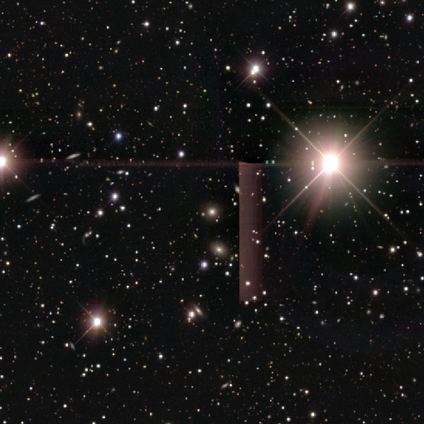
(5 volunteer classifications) Consensus on every question: smooth or featured — star or artifact (100%).